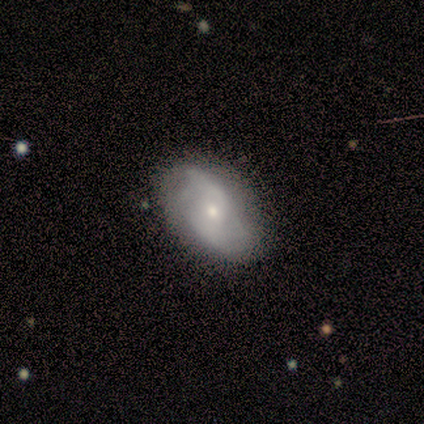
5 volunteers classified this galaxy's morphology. Overall: featured or disk (80%). Edge-on disk: no (100%). Bar: no (75%). Spiral arms: yes (75%). Spiral arm count: 2 (100%). Spiral winding: loose (67%; tight 33%). Bulge size: small (75%). Merging: none (40%, tied with minor disturbance).